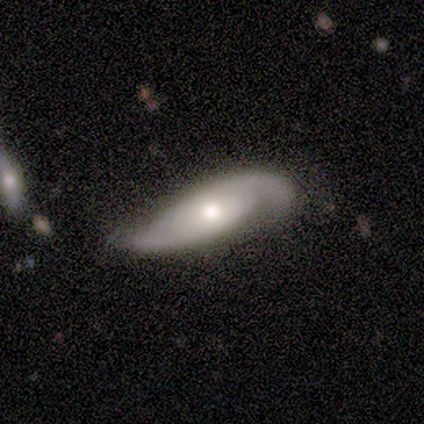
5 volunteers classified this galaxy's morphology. Smooth or featured?
  - featured or disk: 80% *
  - smooth: 20%
  - star or artifact: 0%
Edge-on disk?
  - no: 75% *
  - yes: 25%
Bar?
  - no: 100% *
  - strong: 0%
  - weak: 0%
Spiral arms?
  - yes: 67% *
  - no: 33%
Spiral winding?
  - medium: 50% * (tied)
  - loose: 50% * (tied)
  - tight: 0%
Spiral arm count?
  - 2: 100% *
  - 1: 0%
  - 3: 0%
  - 4: 0%
  - more than 4: 0%
  - can't tell: 0%
Bulge size?
  - moderate: 67% *
  - large: 33%
  - dominant: 0%
  - small: 0%
  - none: 0%
Merging?
  - none: 60% *
  - major disturbance: 40%
  - minor disturbance: 0%
  - merger: 0%